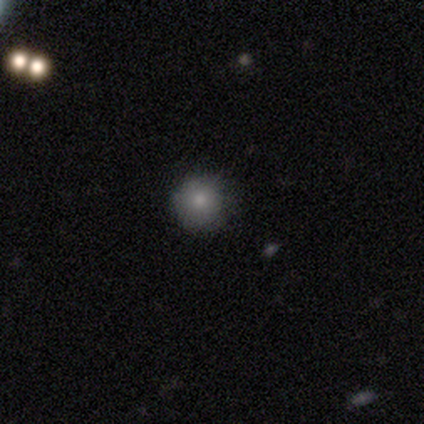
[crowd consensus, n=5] Smooth or featured? smooth (80%)
How rounded? round (100%)
Merging? none (100%)